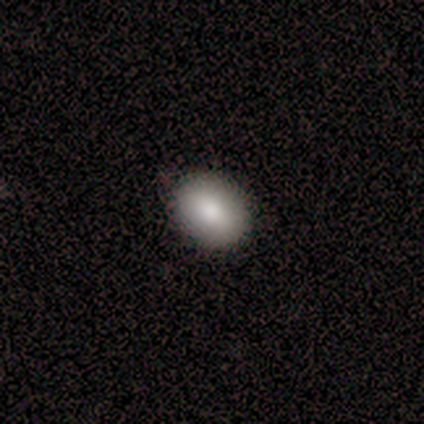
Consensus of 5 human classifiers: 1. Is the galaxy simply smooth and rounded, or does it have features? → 100% smooth, 0% featured or disk, 0% star or artifact.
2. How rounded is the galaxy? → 60% in between, 40% round, 0% cigar-shaped.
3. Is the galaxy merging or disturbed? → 100% none, 0% minor disturbance, 0% major disturbance, 0% merger.